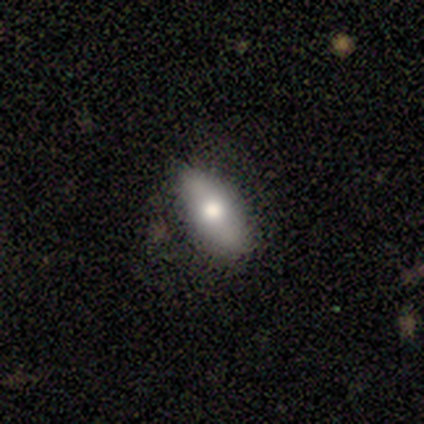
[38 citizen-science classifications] smooth-or-featured: smooth: 68% | featured or disk: 26% | star or artifact: 5%
  how-rounded: in between: 88% | cigar-shaped: 12% | round: 0%
  merging: none: 83% | minor disturbance: 14% | major disturbance: 3% | merger: 0%